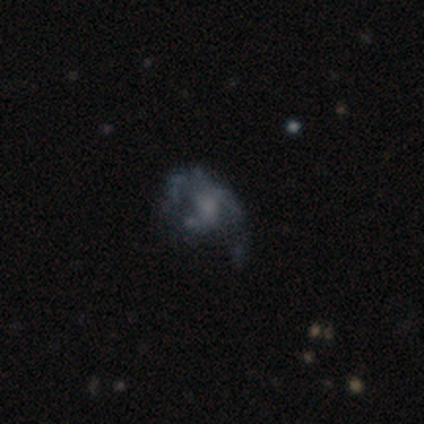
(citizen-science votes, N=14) featured or disk 64%, smooth 21%, star or artifact 14%. Down the decision tree: edge-on disk — no (100%); bar — no (78%); spiral arms — yes (67%); spiral arm count — can't tell (67%); spiral winding — loose (67%); bulge size — moderate (44%); merging — none (50%).